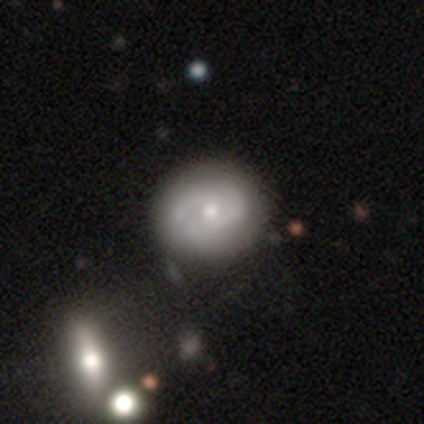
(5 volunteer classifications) This is marginally a smooth galaxy (40%, tied with featured or disk). How rounded: clearly round (100%). Merging: clearly none (100%).